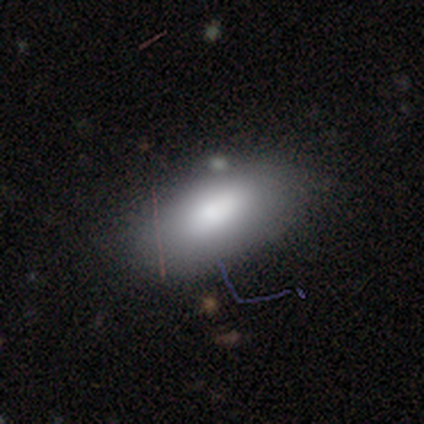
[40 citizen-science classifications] Smooth or featured?
  - smooth: 78% *
  - featured or disk: 12%
  - star or artifact: 10%
How rounded?
  - in between: 90% *
  - round: 6%
  - cigar-shaped: 3%
Merging?
  - none: 81% *
  - minor disturbance: 11%
  - merger: 8%
  - major disturbance: 0%